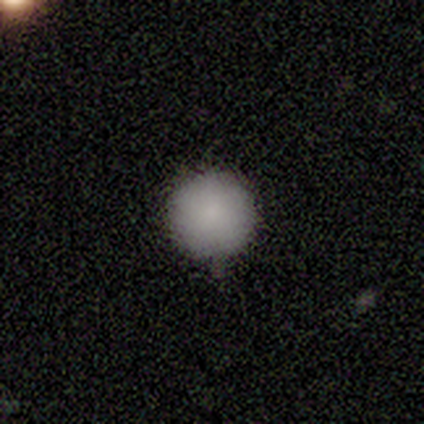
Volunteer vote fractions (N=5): smooth-or-featured: smooth: 100% | featured or disk: 0% | star or artifact: 0%
  how-rounded: round: 100% | in between: 0% | cigar-shaped: 0%
  merging: none: 100% | minor disturbance: 0% | major disturbance: 0% | merger: 0%